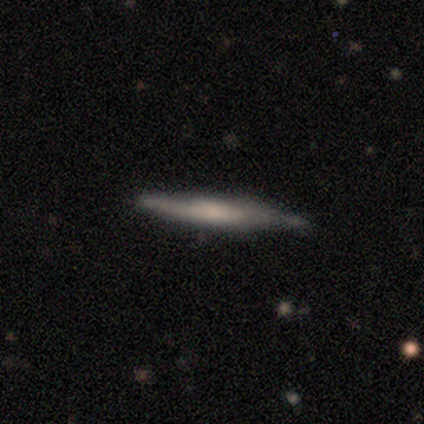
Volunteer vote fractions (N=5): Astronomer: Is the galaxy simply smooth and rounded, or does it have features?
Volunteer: smooth — 60% (runner-up: featured or disk, 40%).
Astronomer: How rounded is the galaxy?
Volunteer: cigar-shaped — 100%.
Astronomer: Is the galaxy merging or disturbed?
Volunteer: none — 60%.